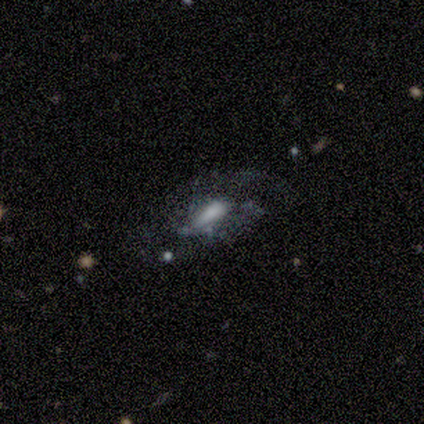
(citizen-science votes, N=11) This is clearly a featured or disk galaxy (82%). It is clearly not viewed edge-on (100%). Bar: likely no (67%). Spiral arm pattern: possibly no (56%). Central bulge: marginally moderate (33%, tied with small). Merging: possibly major disturbance (45%).